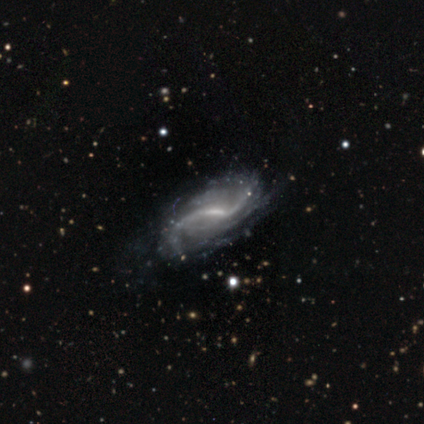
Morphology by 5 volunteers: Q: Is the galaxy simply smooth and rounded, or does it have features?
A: featured or disk — 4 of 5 (80%).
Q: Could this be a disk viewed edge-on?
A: no — 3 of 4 (75%).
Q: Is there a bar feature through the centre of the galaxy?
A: weak — 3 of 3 (100%).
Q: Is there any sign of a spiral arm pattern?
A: yes — 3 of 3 (100%).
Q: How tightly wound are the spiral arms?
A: loose — 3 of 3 (100%).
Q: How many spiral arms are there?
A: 2 — 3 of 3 (100%).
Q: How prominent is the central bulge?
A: small — 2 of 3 (67%).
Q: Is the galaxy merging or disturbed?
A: none — 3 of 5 (60%).